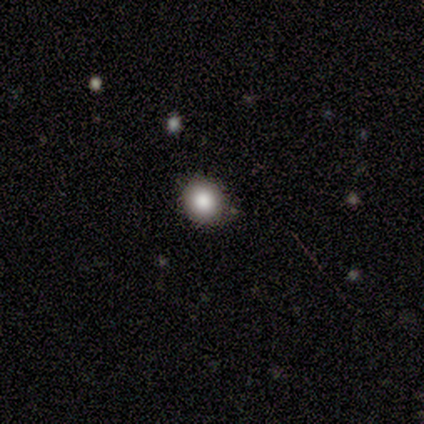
smooth-or-featured: smooth: 100% | featured or disk: 0% | star or artifact: 0%
  how-rounded: round: 80% | in between: 20% | cigar-shaped: 0%
  merging: none: 60% | minor disturbance: 40% | major disturbance: 0% | merger: 0%